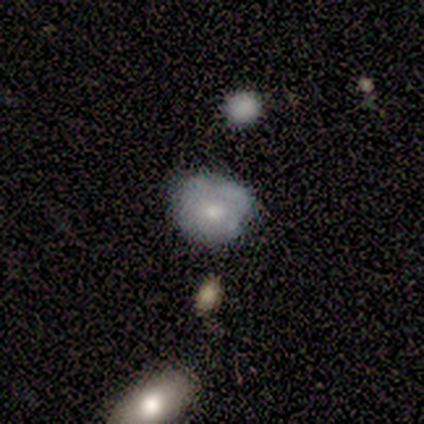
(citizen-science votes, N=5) This is likely a smooth galaxy (60%). How rounded: likely round (67%). Merging: clearly none (80%).